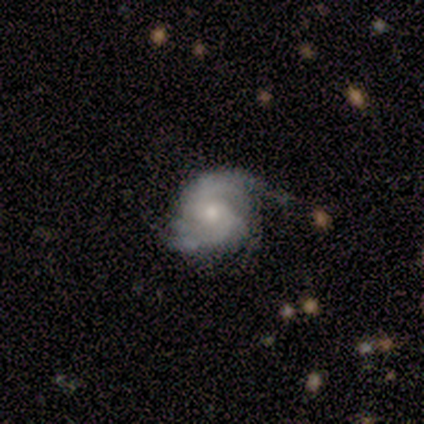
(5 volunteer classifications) Q: Smooth or featured?
A: featured or disk (100%)
Q: Edge-on disk?
A: no (100%)
Q: Bar?
A: no (60%); runner-up: weak (40%)
Q: Spiral arms?
A: yes (100%)
Q: Spiral winding?
A: tight (60%); runner-up: medium (20%)
Q: Spiral arm count?
A: can't tell (80%); runner-up: more than 4 (20%)
Q: Bulge size?
A: moderate (60%); runner-up: small (40%)
Q: Merging?
A: minor disturbance (80%); runner-up: none (20%)